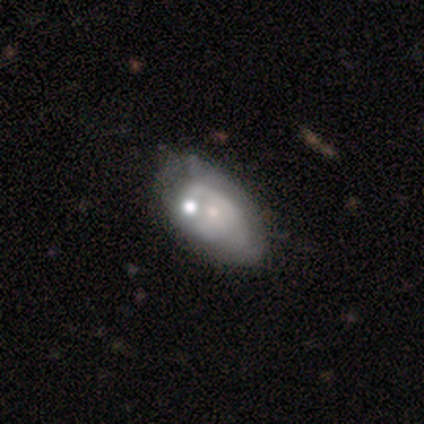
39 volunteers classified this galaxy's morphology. featured or disk 54%, smooth 44%, star or artifact 3%. Down the decision tree: edge-on disk — no (100%); bar — no (90%); spiral arms — no (67%); bulge size — small (71%); merging — none (47%).